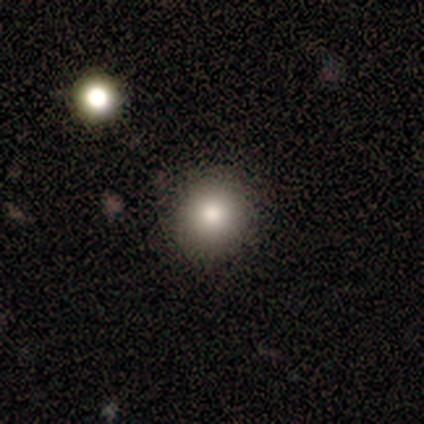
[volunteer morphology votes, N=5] type=smooth (100%); roundness=round (100%); merging=none (100%).